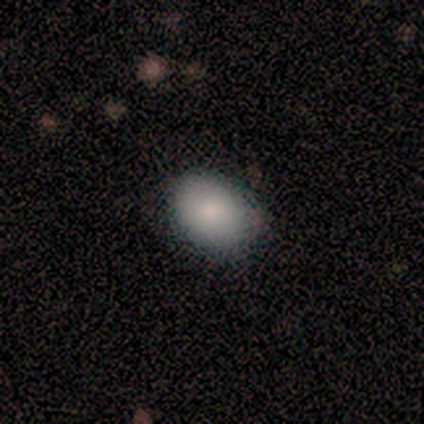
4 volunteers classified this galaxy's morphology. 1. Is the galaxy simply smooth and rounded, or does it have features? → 100% smooth, 0% featured or disk, 0% star or artifact.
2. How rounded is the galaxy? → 100% in between, 0% round, 0% cigar-shaped.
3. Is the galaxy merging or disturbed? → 75% none, 25% minor disturbance, 0% major disturbance, 0% merger.